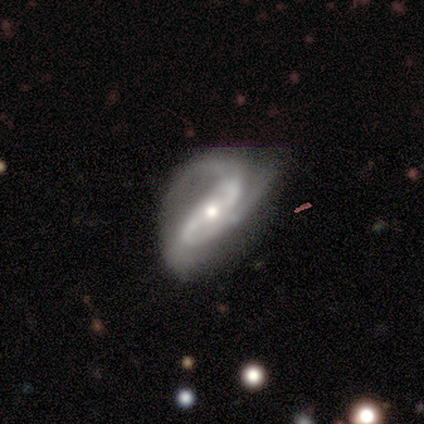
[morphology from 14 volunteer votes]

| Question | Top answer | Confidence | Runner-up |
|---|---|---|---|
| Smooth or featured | featured or disk | 86% | star or artifact (14%) |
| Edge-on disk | no | 92% | yes (8%) |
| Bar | strong | 45% | weak (36%) |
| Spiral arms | yes | 100% | — |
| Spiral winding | medium | 55% | loose (27%) |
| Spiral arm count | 2 | 73% | 3 (18%) |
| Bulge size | moderate | 73% | small (27%) |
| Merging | major disturbance | 50% | none (25%) |